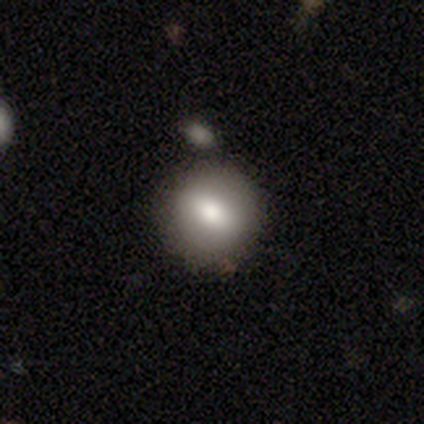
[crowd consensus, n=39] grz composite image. It shows a smooth galaxy with no disk features (74%) that is round (79%). Merging: none (69%).